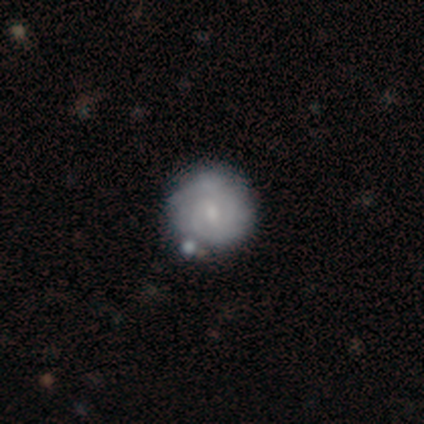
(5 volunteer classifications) Smooth or featured: featured or disk — 60% (smooth — 40%)
Edge-on disk: no — 100%
Bar: weak — 67% (no — 33%)
Spiral arms: yes — 100%
Spiral winding: tight — 100%
Spiral arm count: 2 — 33% (tied with 3 — 33%; can't tell — 33%)
Bulge size: small — 67% (moderate — 33%)
Merging: none — 80% (merger — 20%)